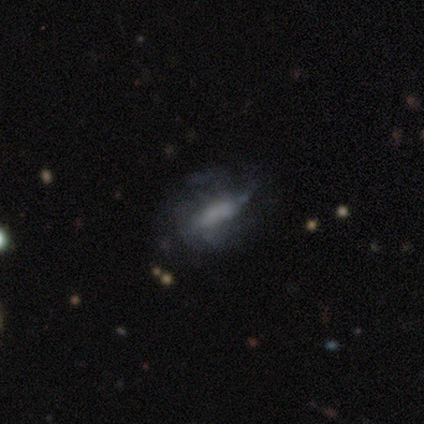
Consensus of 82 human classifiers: Morphology: type=featured or disk (49%); edge-on=no (78%); bar=no (58%); spiral arms=no (52%); bulge=none (68%); merging=none (46%).